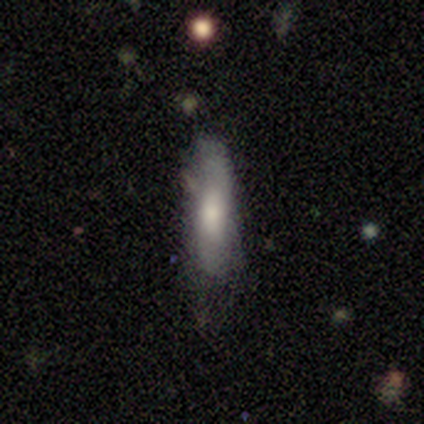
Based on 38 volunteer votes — Smooth or featured: smooth — 71% (featured or disk — 26%)
How rounded: cigar-shaped — 70% (in between — 30%)
Merging: none — 51% (minor disturbance — 41%)